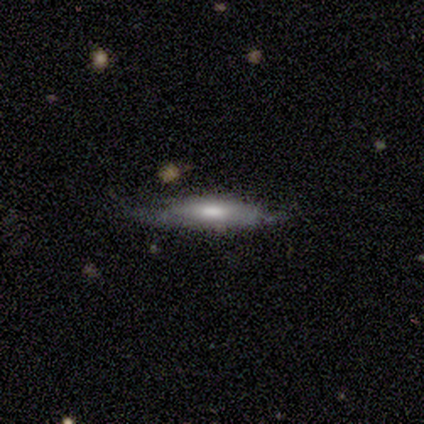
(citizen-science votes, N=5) This appears to be a featured or disk galaxy (60%) with a weak bar (50%, tied with no), no spiral arms (100%) and a moderate central bulge (100%). Merging: none (60%).